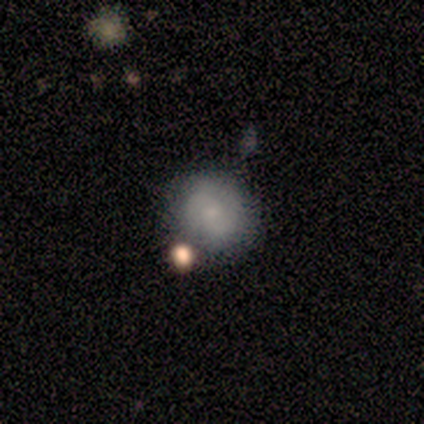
Smooth or featured: featured or disk — 60% (smooth — 40%)
Edge-on disk: no — 100%
Bar: no — 100%
Spiral arms: yes — 67% (no — 33%)
Spiral winding: tight — 50% (tied with loose — 50%)
Spiral arm count: 2 — 100%
Bulge size: small — 100%
Merging: none — 60% (minor disturbance — 40%)